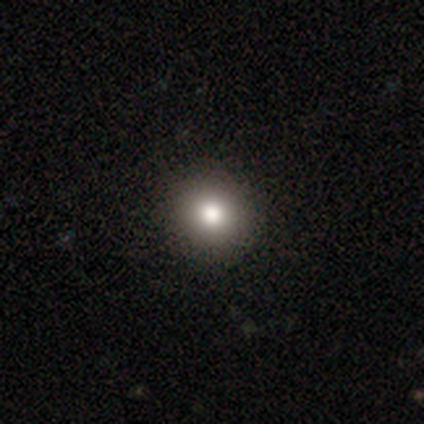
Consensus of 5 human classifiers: This appears to be a smooth galaxy with no disk features (100%) that is round (80%). Merging: none (100%).